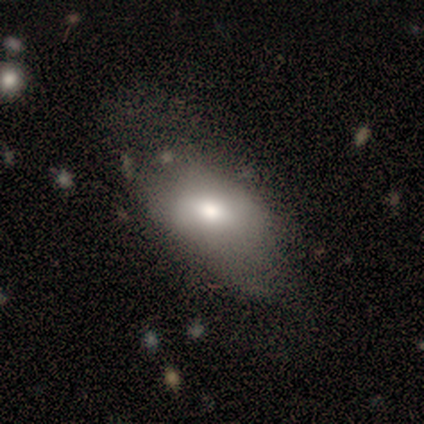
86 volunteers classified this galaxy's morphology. Smooth or featured?
  - smooth: 63% *
  - featured or disk: 30%
  - star or artifact: 7%
How rounded?
  - in between: 94% *
  - round: 4%
  - cigar-shaped: 2%
Merging?
  - none: 42% *
  - minor disturbance: 28%
  - major disturbance: 26%
  - merger: 4%